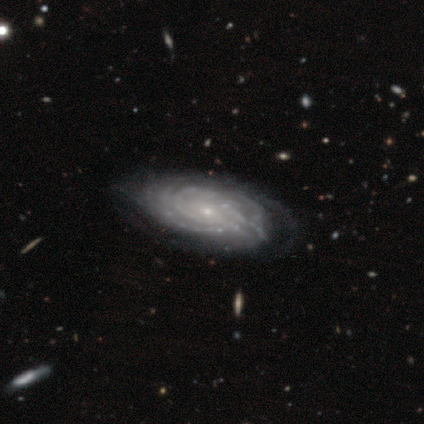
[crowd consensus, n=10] Q: Smooth or featured?
A: featured or disk (100%)
Q: Edge-on disk?
A: no (70%); runner-up: yes (30%)
Q: Bar?
A: no (100%)
Q: Spiral arms?
A: yes (100%)
Q: Spiral winding?
A: tight (100%)
Q: Spiral arm count?
A: can't tell (86%); runner-up: more than 4 (14%)
Q: Bulge size?
A: small (100%)
Q: Merging?
A: none (60%); runner-up: minor disturbance (40%)